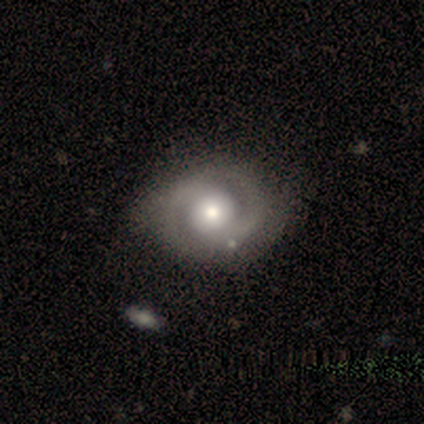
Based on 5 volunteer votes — featured or disk 80%, smooth 20%, star or artifact 0%. Down the decision tree: edge-on disk — no (100%); bar — no (75%); spiral arms — yes (75%); spiral arm count — 2 (100%); spiral winding — medium (67%); bulge size — moderate (75%); merging — none (60%).